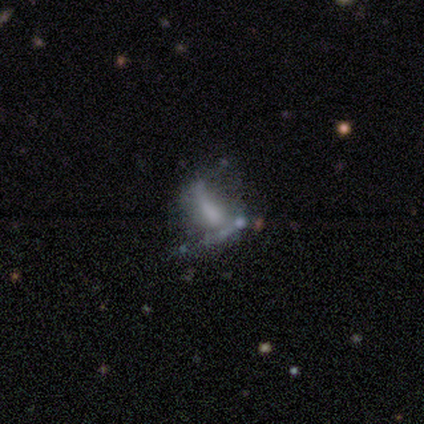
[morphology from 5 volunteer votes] smooth 40% (tied), featured or disk 40% (tied), star or artifact 20%. Down the decision tree: how rounded — in between (50%, tied with cigar-shaped); merging — none (50%, tied with major disturbance).